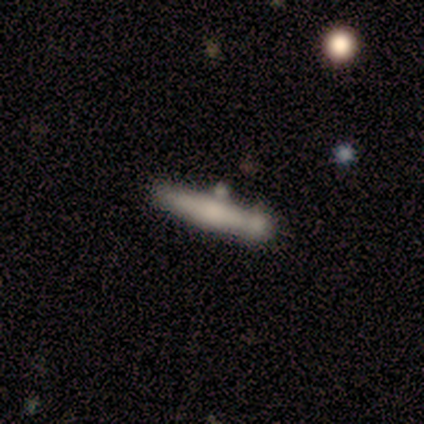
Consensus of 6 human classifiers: This is likely a featured or disk galaxy (67%). It is clearly viewed edge-on (100%). Edge-on bulge: possibly none (50%, tied with rounded). Merging: likely none (67%).